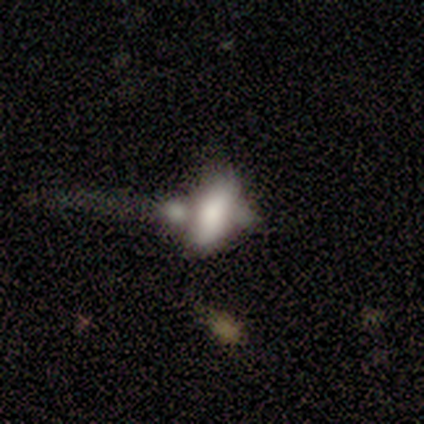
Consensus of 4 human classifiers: Overall: smooth (50%, tied with featured or disk). How rounded: in between (100%). Merging: merger (75%).